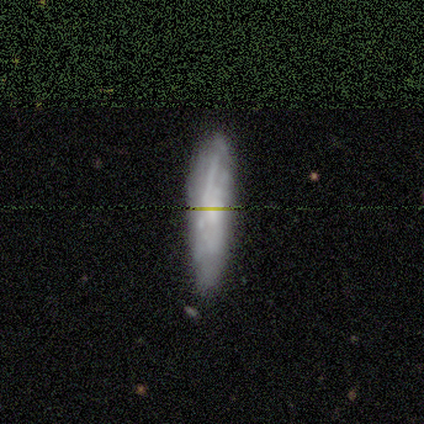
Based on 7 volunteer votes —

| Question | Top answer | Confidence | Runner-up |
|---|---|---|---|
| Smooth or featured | smooth | 57% | featured or disk (43%) |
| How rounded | in between | 50% | tied: cigar-shaped (50%) |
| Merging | none | 86% | minor disturbance (14%) |